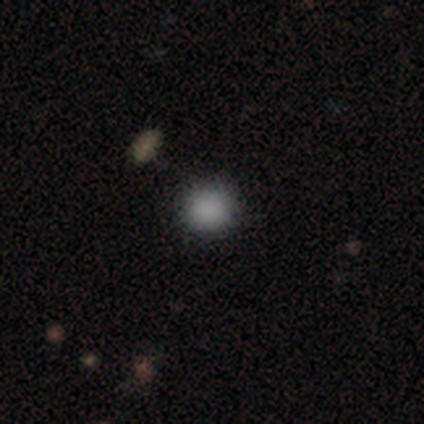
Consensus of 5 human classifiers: Smooth or featured?
  - smooth: 80% *
  - star or artifact: 20%
  - featured or disk: 0%
How rounded?
  - round: 100% *
  - in between: 0%
  - cigar-shaped: 0%
Merging?
  - none: 100% *
  - minor disturbance: 0%
  - major disturbance: 0%
  - merger: 0%